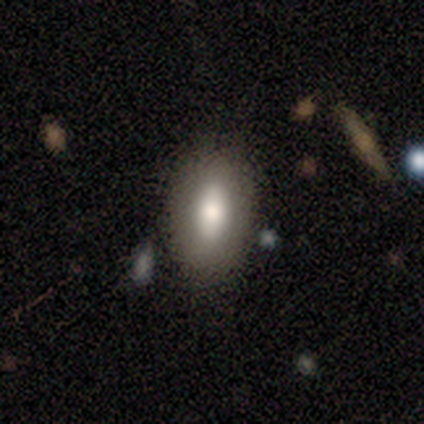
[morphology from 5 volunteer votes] A smooth galaxy with no disk features (80%) that is in between round and cigar-shaped (100%). Merging: none (80%).